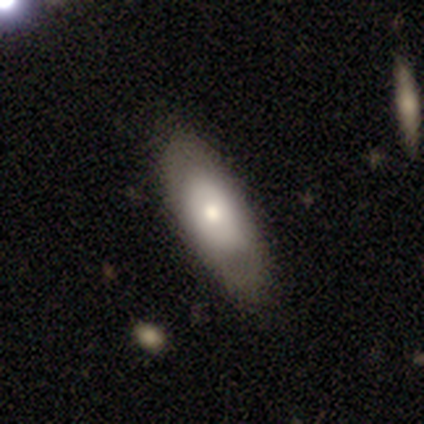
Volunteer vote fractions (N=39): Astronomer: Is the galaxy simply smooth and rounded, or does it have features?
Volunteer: smooth — 56% (runner-up: featured or disk, 41%).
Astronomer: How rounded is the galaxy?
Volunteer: in between — 86%.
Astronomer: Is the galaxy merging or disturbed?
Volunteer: none — 66%.